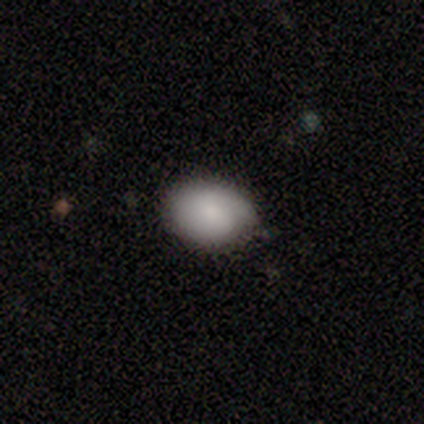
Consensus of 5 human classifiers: Volunteers were most divided on "merging": none: 60%, minor disturbance: 40%, major disturbance: 0%, merger: 0%. More confident: how rounded — in between (100%); smooth or featured — smooth (80%).